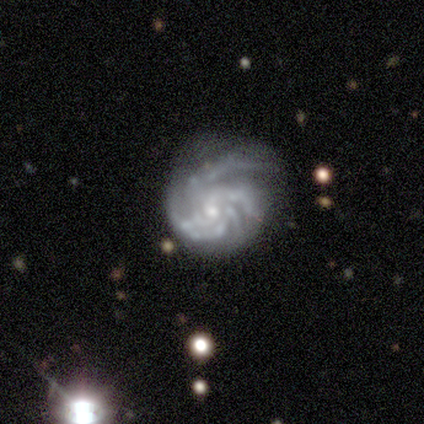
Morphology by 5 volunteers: smooth-or-featured: featured or disk: 100% | smooth: 0% | star or artifact: 0%
  disk-edge-on: no: 100% | yes: 0%
    bar: no: 100% | strong: 0% | weak: 0%
    has-spiral-arms: yes: 100% | no: 0%
      spiral-winding: medium: 60% | tight: 40% | loose: 0%
      spiral-arm-count: more than 4: 40% | 3: 20% | 4: 20% | can't tell: 20% | 1: 0% | 2: 0%
    bulge-size: moderate: 60% | small: 40% | dominant: 0% | large: 0% | none: 0%
  merging: minor disturbance: 40% (tied) | major disturbance: 40% (tied) | none: 20% | merger: 0%